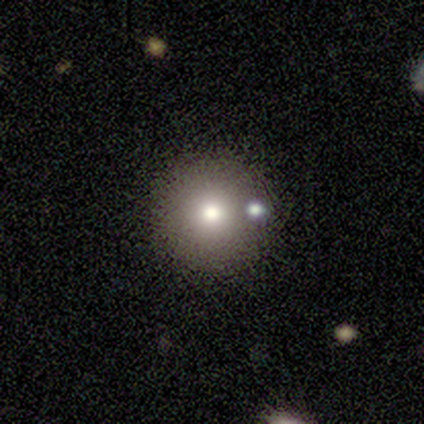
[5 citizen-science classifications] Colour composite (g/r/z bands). It shows a smooth galaxy with no disk features (80%) that is round (100%). Merging: none (60%).